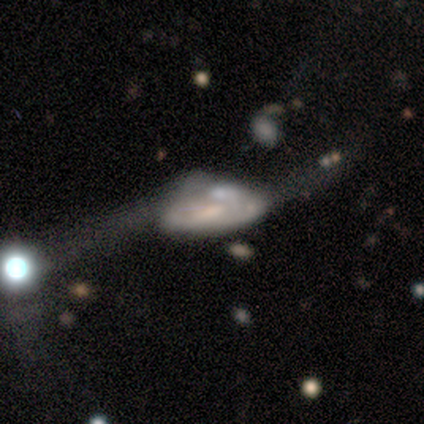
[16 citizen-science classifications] Smooth or featured? 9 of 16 (56%) said featured or disk. Edge-on disk? 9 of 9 (100%) said no. Bar? 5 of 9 (56%) said no. Spiral arms? 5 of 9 (56%) said no. Bulge size? 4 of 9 (44%) said small. Merging? 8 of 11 (73%) said major disturbance.